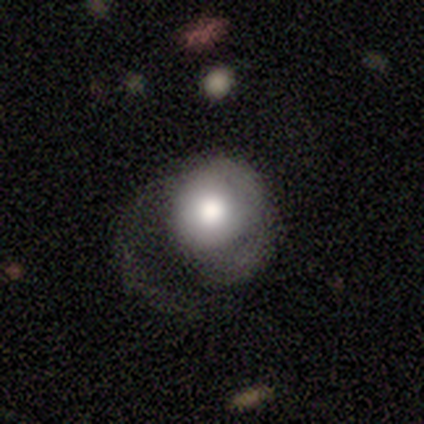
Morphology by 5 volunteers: Smooth or featured?
  - smooth: 40% * (tied)
  - featured or disk: 40% * (tied)
  - star or artifact: 20%
How rounded?
  - round: 100% *
  - in between: 0%
  - cigar-shaped: 0%
Merging?
  - major disturbance: 75% *
  - none: 25%
  - minor disturbance: 0%
  - merger: 0%